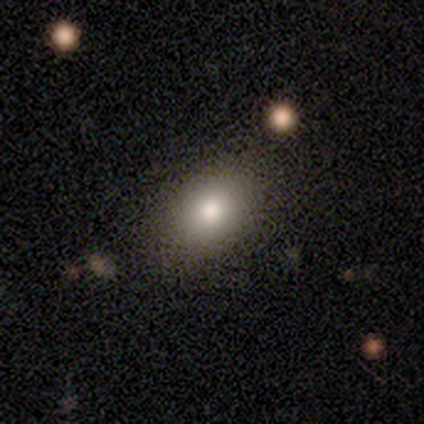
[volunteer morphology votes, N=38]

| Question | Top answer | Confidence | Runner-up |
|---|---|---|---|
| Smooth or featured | smooth | 79% | featured or disk (16%) |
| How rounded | in between | 80% | round (20%) |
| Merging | none | 78% | minor disturbance (11%) |